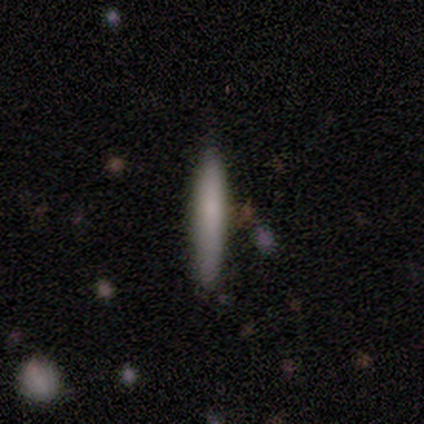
This is likely a smooth galaxy (75%). How rounded: likely cigar-shaped (67%). Merging: clearly none (100%).